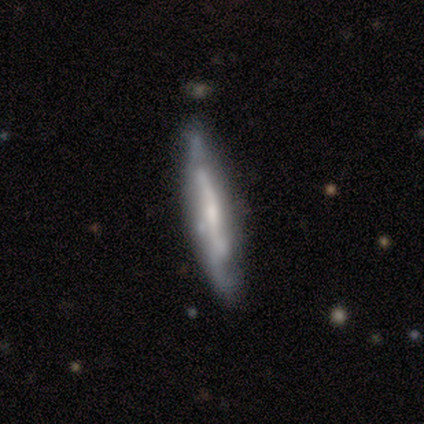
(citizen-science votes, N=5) featured or disk 60%, smooth 20%, star or artifact 20%. Down the decision tree: edge-on disk — yes (67%); edge-on bulge — none (100%); merging — none (75%).